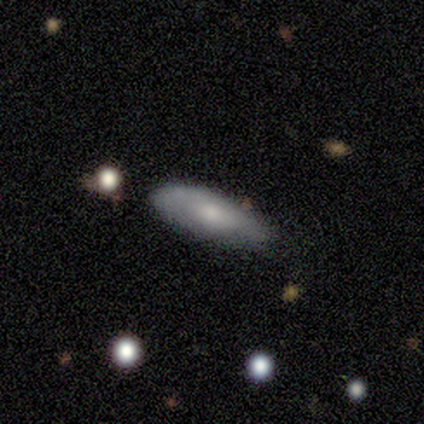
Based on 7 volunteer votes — A smooth galaxy with no disk features (57%) that is in between round and cigar-shaped (75%). Merging: none (100%).